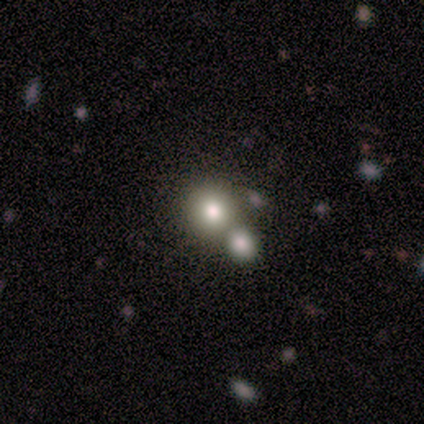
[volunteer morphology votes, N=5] This is marginally a smooth galaxy (40%, tied with featured or disk). How rounded: clearly round (100%). Merging: likely none (75%).